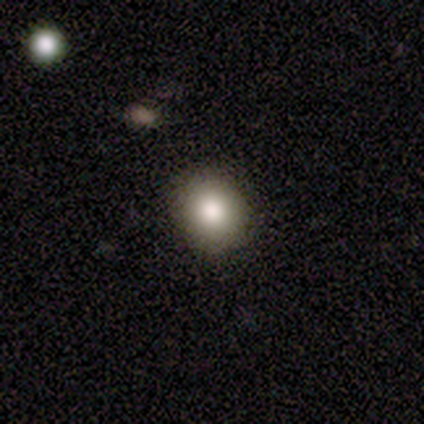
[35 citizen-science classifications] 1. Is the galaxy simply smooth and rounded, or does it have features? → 89% smooth, 6% featured or disk, 6% star or artifact.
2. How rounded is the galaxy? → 81% round, 19% in between, 0% cigar-shaped.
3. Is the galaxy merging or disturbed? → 82% none, 15% minor disturbance, 3% major disturbance, 0% merger.